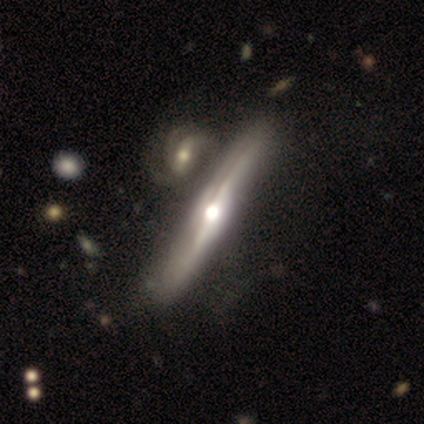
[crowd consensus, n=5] Smooth or featured? featured or disk (80%)
Edge-on disk? yes (100%)
Edge-on bulge? rounded (75%)
Merging? none (80%)